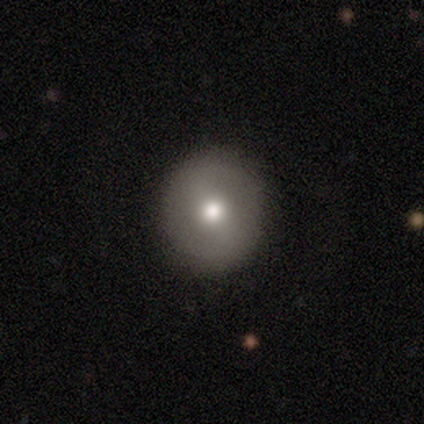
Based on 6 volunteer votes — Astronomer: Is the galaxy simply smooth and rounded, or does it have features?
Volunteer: smooth — 100%.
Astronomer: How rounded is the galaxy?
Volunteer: round — 83%.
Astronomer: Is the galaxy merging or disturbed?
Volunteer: none — 100%.